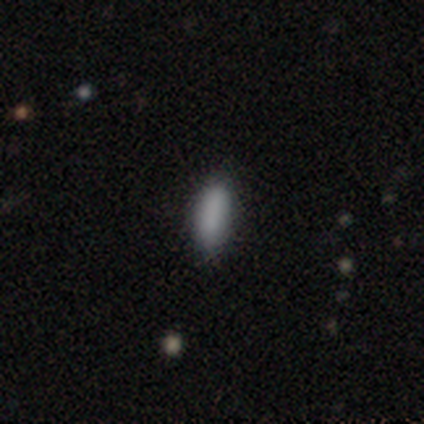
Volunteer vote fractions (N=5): smooth_or_featured: smooth (p=0.80) [alt: featured or disk p=0.20]
how_rounded: in between (p=0.75) [alt: cigar-shaped p=0.25]
merging: none (p=0.60) [alt: minor disturbance p=0.20]